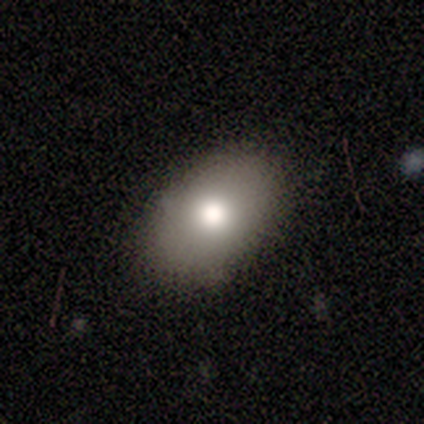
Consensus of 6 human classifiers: Smooth or featured? smooth (100%)
How rounded? in between (83%)
Merging? none (83%)